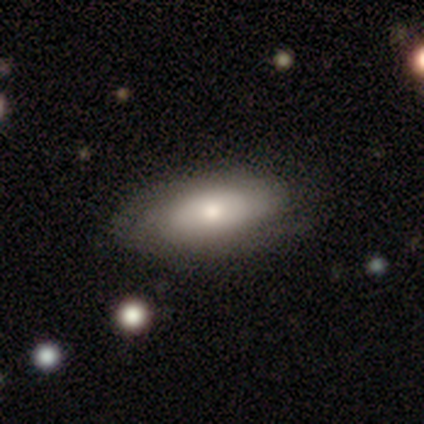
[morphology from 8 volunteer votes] Smooth or featured?
  - smooth: 62% *
  - featured or disk: 38%
  - star or artifact: 0%
How rounded?
  - in between: 100% *
  - round: 0%
  - cigar-shaped: 0%
Merging?
  - none: 50% * (tied)
  - minor disturbance: 50% * (tied)
  - major disturbance: 0%
  - merger: 0%